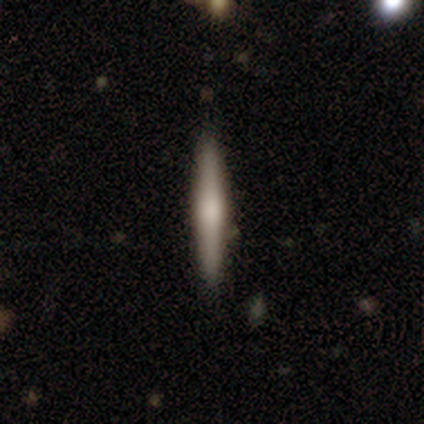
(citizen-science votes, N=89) A smooth galaxy with no disk features (53%) that is cigar-shaped (96%).

Vote fractions:
- Smooth or featured? smooth: 53% / featured or disk: 44% / star or artifact: 3%
- How rounded? cigar-shaped: 96% / round: 2% / in between: 2%
- Merging? none: 90% / minor disturbance: 5% / merger: 3% / major disturbance: 2%